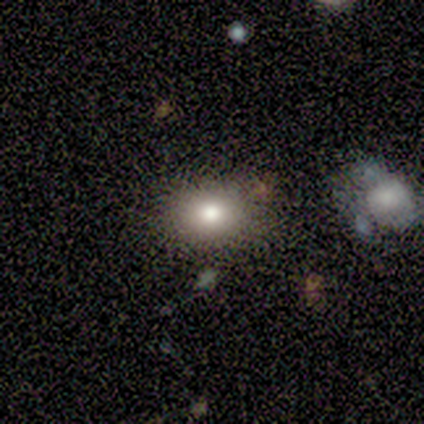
Q: Smooth or featured?
A: smooth (60%); runner-up: featured or disk (20%)
Q: How rounded?
A: in between (67%); runner-up: round (33%)
Q: Merging?
A: none (75%); runner-up: minor disturbance (25%)